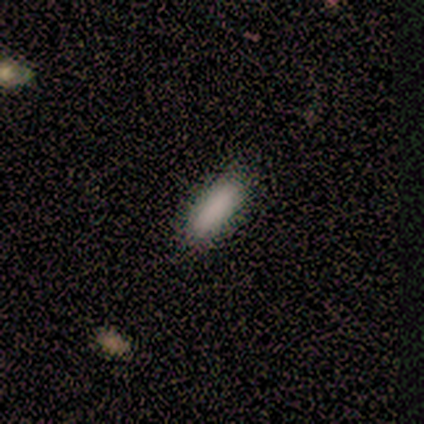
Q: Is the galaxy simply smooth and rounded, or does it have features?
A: smooth — 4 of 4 (100%).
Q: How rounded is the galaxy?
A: cigar-shaped — 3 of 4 (75%).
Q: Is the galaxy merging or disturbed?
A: none — 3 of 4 (75%).